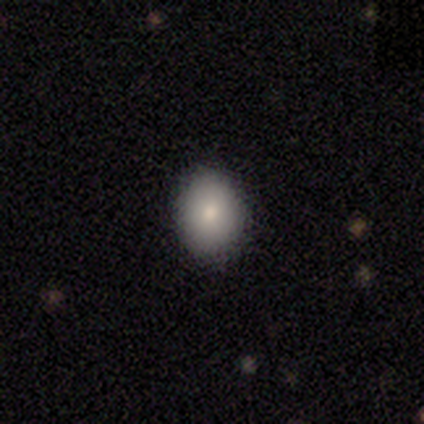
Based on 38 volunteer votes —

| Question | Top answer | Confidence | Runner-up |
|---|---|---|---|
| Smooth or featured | smooth | 89% | star or artifact (8%) |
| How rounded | in between | 59% | round (38%) |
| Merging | none | 94% | minor disturbance (6%) |